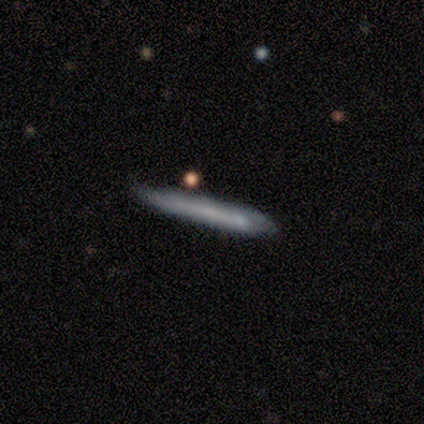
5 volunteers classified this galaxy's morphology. Q: Smooth or featured?
A: featured or disk (80%); runner-up: smooth (20%)
Q: Edge-on disk?
A: yes (75%); runner-up: no (25%)
Q: Edge-on bulge?
A: none (100%)
Q: Merging?
A: minor disturbance (60%); runner-up: none (40%)